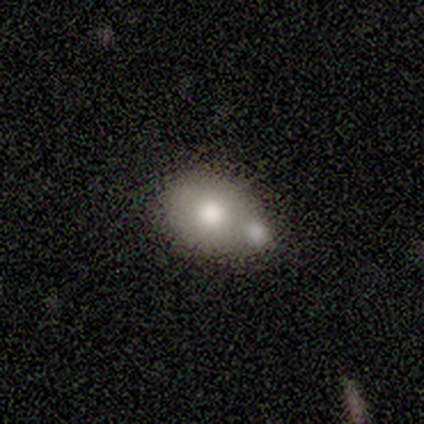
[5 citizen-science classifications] smooth-or-featured: smooth: 80% | featured or disk: 20% | star or artifact: 0%
  how-rounded: in between: 75% | round: 25% | cigar-shaped: 0%
  merging: merger: 60% | none: 20% | minor disturbance: 20% | major disturbance: 0%